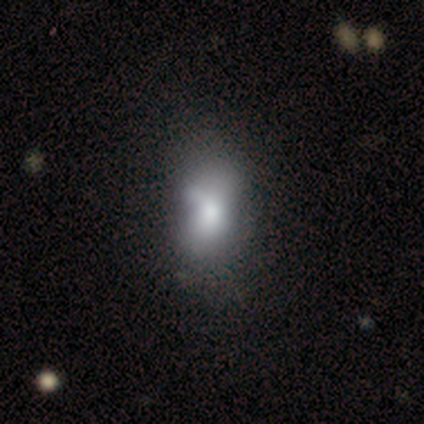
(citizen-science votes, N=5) Smooth or featured? smooth (100%)
How rounded? in between (100%)
Merging? none (60%)